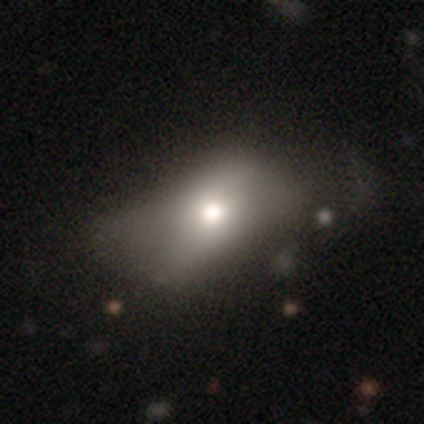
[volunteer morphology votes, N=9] smooth 67%, featured or disk 22%, star or artifact 11%. Down the decision tree: how rounded — in between (83%); merging — minor disturbance (38%, tied with major disturbance).